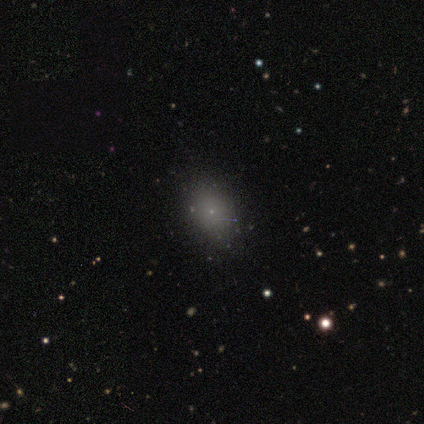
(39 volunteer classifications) This is likely a smooth galaxy (64%). How rounded: likely in between (64%). Merging: clearly none (93%).